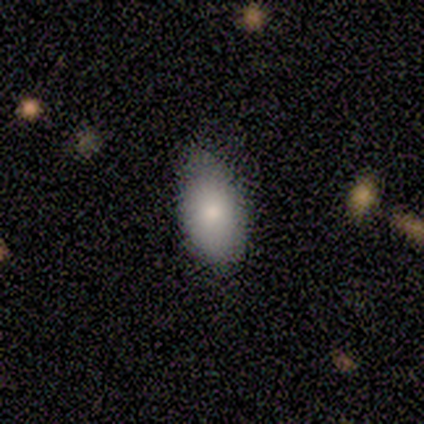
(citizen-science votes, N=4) Morphology: type=smooth (50%); roundness=in between (100%); merging=minor disturbance (67%).